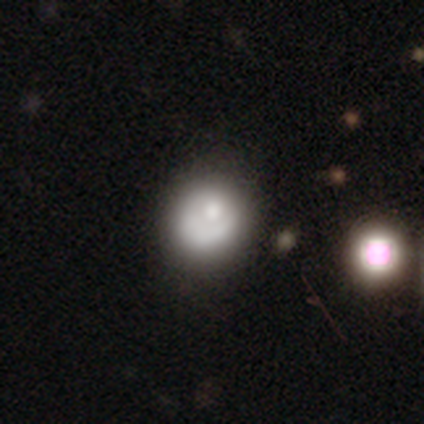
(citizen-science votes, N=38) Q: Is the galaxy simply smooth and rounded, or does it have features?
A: smooth — 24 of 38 (63%).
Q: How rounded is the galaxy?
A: round — 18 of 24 (75%).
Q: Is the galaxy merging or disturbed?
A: none — 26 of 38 (68%).